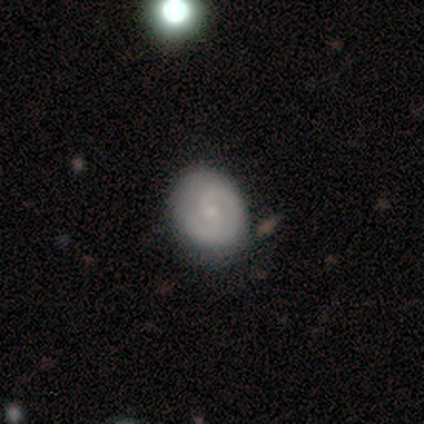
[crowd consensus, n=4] Q: Smooth or featured?
A: featured or disk (75%); runner-up: smooth (25%)
Q: Edge-on disk?
A: no (100%)
Q: Bar?
A: no (100%)
Q: Spiral arms?
A: yes (100%)
Q: Spiral winding?
A: tight (67%); runner-up: medium (33%)
Q: Spiral arm count?
A: 1 (67%); runner-up: 2 (33%)
Q: Bulge size?
A: moderate (33%); tied with: small (33%); none (33%)
Q: Merging?
A: none (100%)